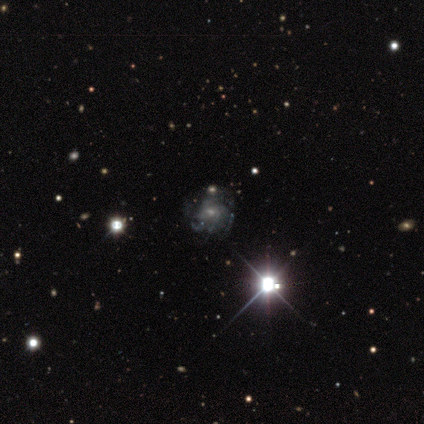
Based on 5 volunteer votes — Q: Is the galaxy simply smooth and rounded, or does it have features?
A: featured or disk — 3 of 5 (60%).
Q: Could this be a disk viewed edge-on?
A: no — 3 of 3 (100%).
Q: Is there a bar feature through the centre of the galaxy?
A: strong — 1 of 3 (33%, tied with weak and no).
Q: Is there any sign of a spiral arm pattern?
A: yes — 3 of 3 (100%).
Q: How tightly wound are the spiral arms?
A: medium — 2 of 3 (67%).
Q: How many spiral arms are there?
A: can't tell — 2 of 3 (67%).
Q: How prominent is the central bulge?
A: small — 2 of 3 (67%).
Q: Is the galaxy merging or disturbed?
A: none — 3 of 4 (75%).